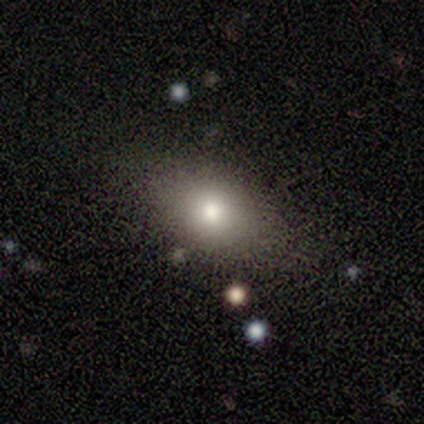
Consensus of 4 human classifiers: smooth-or-featured: smooth: 50% | featured or disk: 25% | star or artifact: 25%
  how-rounded: in between: 100% | round: 0% | cigar-shaped: 0%
  merging: minor disturbance: 67% | none: 33% | major disturbance: 0% | merger: 0%